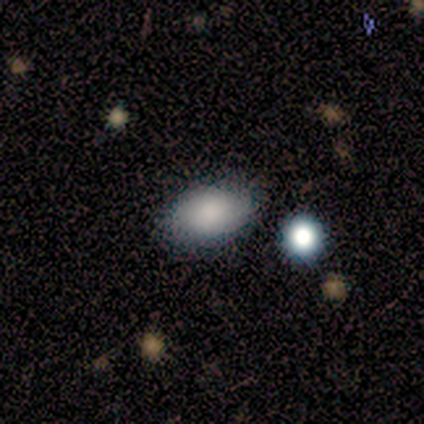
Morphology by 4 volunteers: Q: Smooth or featured?
A: smooth (75%); runner-up: star or artifact (25%)
Q: How rounded?
A: in between (67%); runner-up: round (33%)
Q: Merging?
A: none (100%)